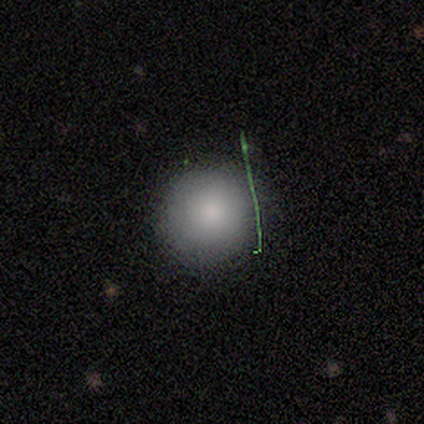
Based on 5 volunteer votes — Morphology: type=smooth (80%); roundness=round (100%); merging=none (80%).